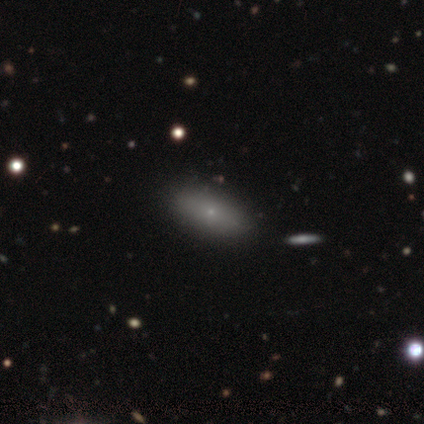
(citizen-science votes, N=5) Morphology: type=smooth (80%); roundness=in between (100%); merging=none (100%).